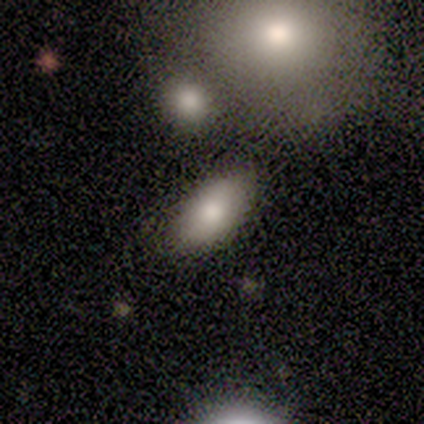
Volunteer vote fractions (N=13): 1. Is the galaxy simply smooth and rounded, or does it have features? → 85% smooth, 8% featured or disk, 8% star or artifact.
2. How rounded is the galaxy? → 91% in between, 9% round, 0% cigar-shaped.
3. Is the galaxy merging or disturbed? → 67% none, 17% minor disturbance, 8% major disturbance, 8% merger.